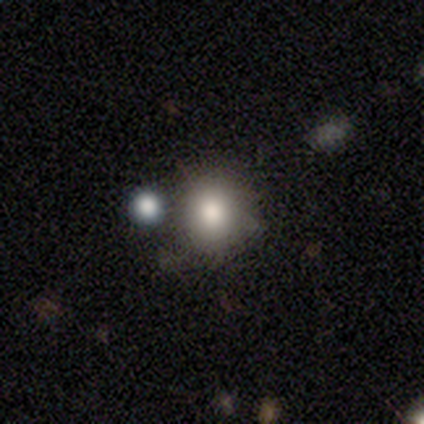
Volunteers were most divided on "smooth or featured" (2-way tie): smooth: 40%, featured or disk: 40%, star or artifact: 20%. More confident: how rounded — round (100%); merging — none (75%).